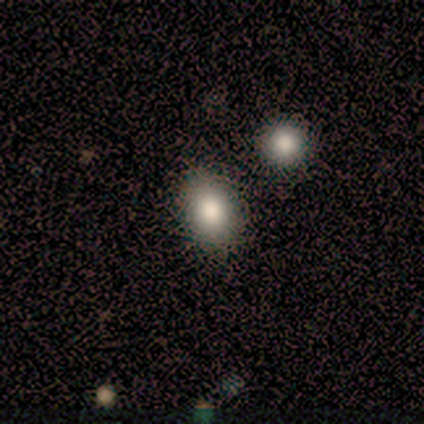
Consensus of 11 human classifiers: Smooth or featured? 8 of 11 (73%) said smooth. How rounded? 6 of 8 (75%) said in between. Merging? 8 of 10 (80%) said none.